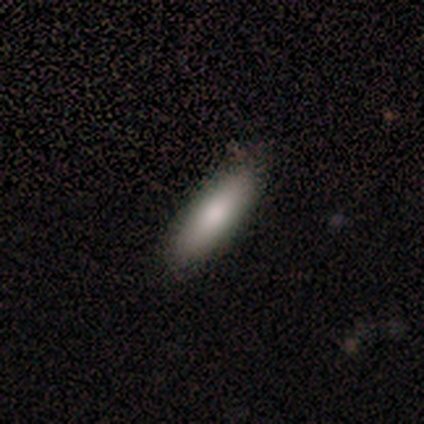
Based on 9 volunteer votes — A smooth galaxy with no disk features (67%) that is cigar-shaped (67%).

Vote fractions:
- Smooth or featured? smooth: 67% / star or artifact: 22% / featured or disk: 11%
- How rounded? cigar-shaped: 67% / in between: 33% / round: 0%
- Merging? none: 100% / minor disturbance: 0% / major disturbance: 0% / merger: 0%